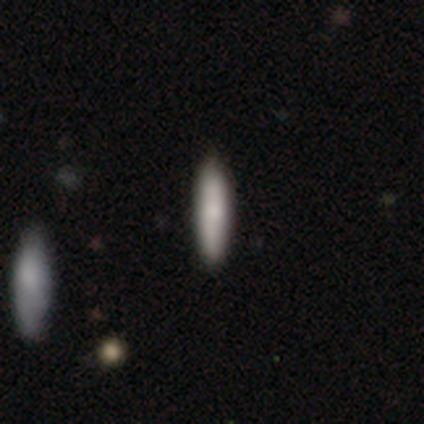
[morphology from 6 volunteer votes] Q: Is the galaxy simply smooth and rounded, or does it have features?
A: smooth — 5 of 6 (83%).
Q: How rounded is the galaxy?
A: cigar-shaped — 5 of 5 (100%).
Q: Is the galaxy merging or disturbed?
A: none — 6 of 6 (100%).